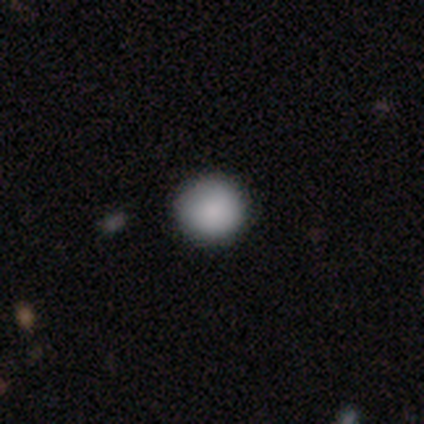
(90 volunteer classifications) smooth 92%, star or artifact 8%, featured or disk 0%. Down the decision tree: how rounded — round (92%); merging — none (95%).